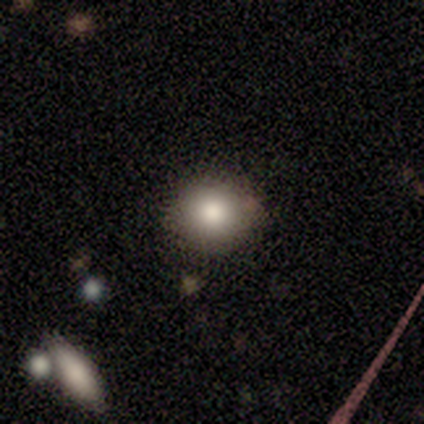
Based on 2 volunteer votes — Smooth or featured: smooth — 50% (tied with star or artifact — 50%)
How rounded: round — 100%
Merging: none — 100%